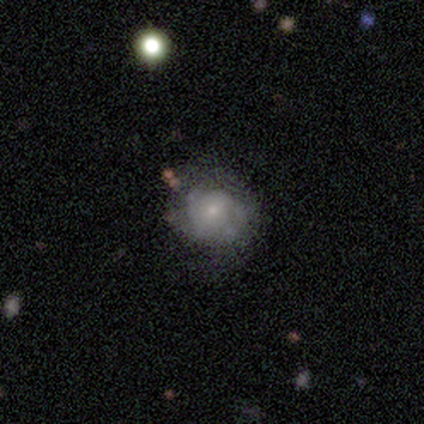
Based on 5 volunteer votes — Volunteers were most divided on "smooth or featured": smooth: 60%, featured or disk: 20%, star or artifact: 20%. More confident: how rounded — round (100%); merging — none (100%).